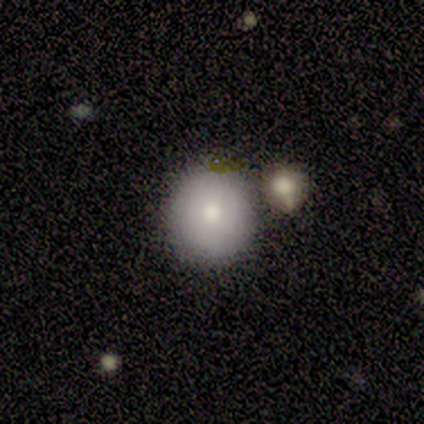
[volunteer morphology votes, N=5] smooth-or-featured: smooth: 80% | featured or disk: 20% | star or artifact: 0%
  how-rounded: round: 100% | in between: 0% | cigar-shaped: 0%
  merging: minor disturbance: 60% | none: 40% | major disturbance: 0% | merger: 0%